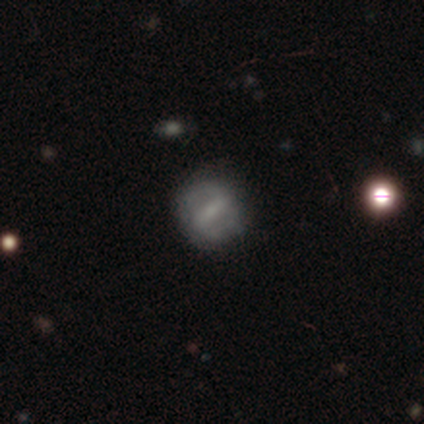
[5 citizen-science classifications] featured or disk 60%, smooth 20%, star or artifact 20%. Down the decision tree: edge-on disk — no (67%); bar — strong (50%, tied with weak); spiral arms — yes (50%, tied with no); spiral arm count — 2 (100%); spiral winding — medium (100%); bulge size — moderate (50%, tied with none); merging — none (100%).